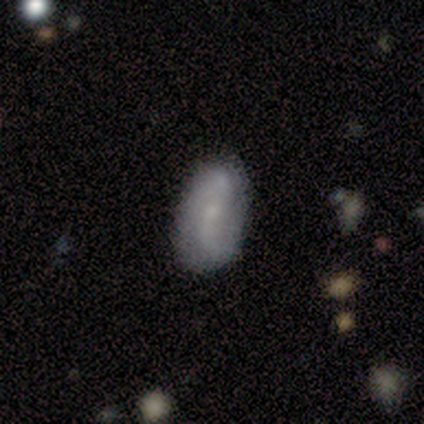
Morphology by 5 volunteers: A smooth galaxy with no disk features (60%) that is in between round and cigar-shaped (67%). Merging: none (100%).